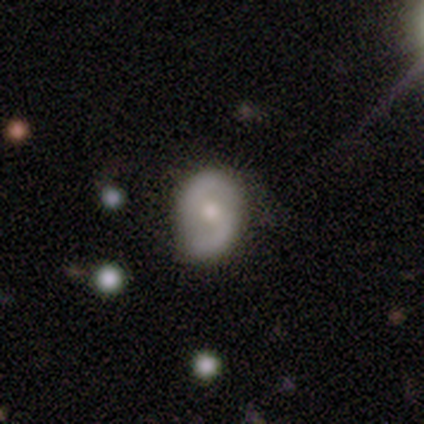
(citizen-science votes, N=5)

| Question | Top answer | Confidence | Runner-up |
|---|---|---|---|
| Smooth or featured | smooth | 60% | featured or disk (40%) |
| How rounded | in between | 67% | round (33%) |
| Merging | none | 60% | minor disturbance (40%) |